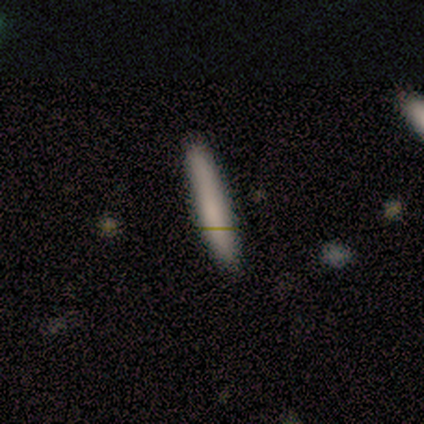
Smooth or featured: smooth — 74% (featured or disk — 16%)
How rounded: cigar-shaped — 96% (in between — 4%)
Merging: none — 82% (minor disturbance — 18%)